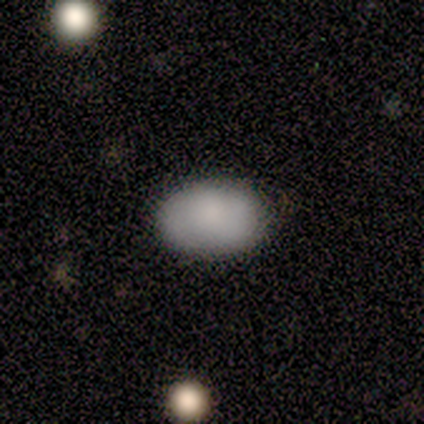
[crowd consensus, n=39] Smooth or featured?
  - smooth: 87% *
  - featured or disk: 10%
  - star or artifact: 3%
How rounded?
  - in between: 94% *
  - round: 6%
  - cigar-shaped: 0%
Merging?
  - none: 66% *
  - minor disturbance: 3%
  - major disturbance: 0%
  - merger: 0%